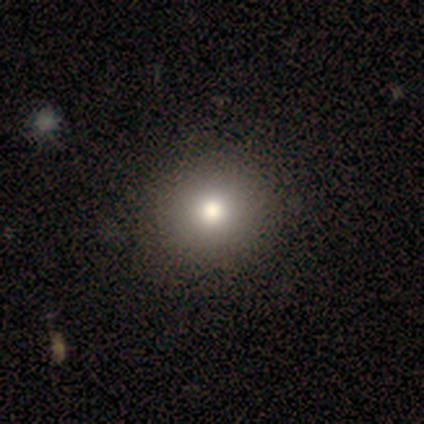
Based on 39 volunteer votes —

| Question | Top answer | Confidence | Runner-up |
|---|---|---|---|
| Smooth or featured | smooth | 87% | star or artifact (8%) |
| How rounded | round | 94% | in between (6%) |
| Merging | none | 56% | minor disturbance (6%) |